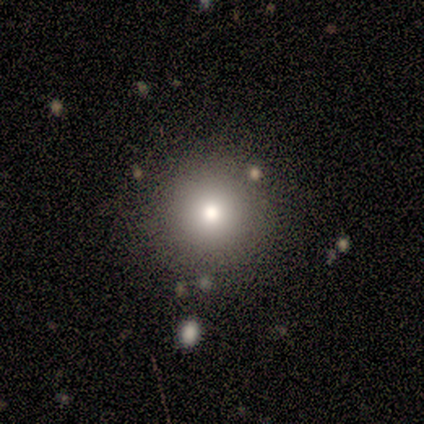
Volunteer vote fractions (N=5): smooth_or_featured: smooth (p=1.00)
how_rounded: round (p=1.00)
merging: none (p=1.00)